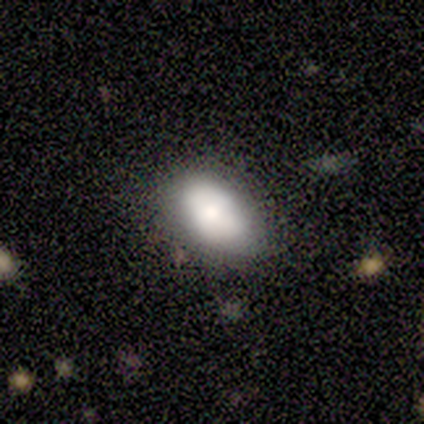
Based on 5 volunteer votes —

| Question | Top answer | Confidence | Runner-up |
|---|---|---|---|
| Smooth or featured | smooth | 80% | featured or disk (20%) |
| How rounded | in between | 100% | — |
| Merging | none | 60% | minor disturbance (40%) |